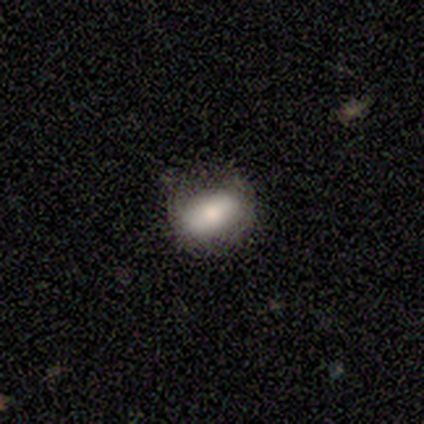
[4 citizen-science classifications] A smooth galaxy with no disk features (100%) that is in between round and cigar-shaped (100%). Merging: minor disturbance (75%).